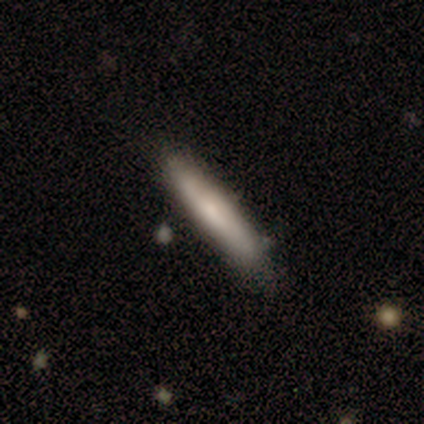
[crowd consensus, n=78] A smooth galaxy with no disk features (74%) that is cigar-shaped (91%).

Vote fractions:
- Smooth or featured? smooth: 74% / featured or disk: 23% / star or artifact: 3%
- How rounded? cigar-shaped: 91% / in between: 9% / round: 0%
- Merging? none: 42% / minor disturbance: 5% / major disturbance: 1% / merger: 1%